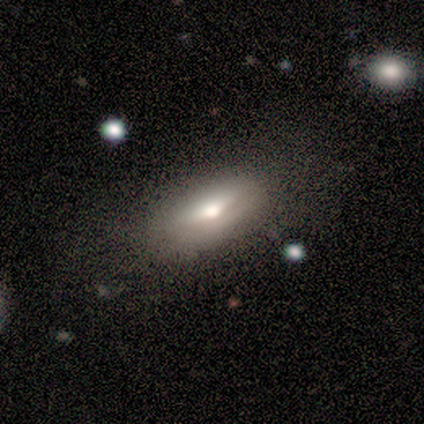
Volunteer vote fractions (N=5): Volunteers were most divided on "how rounded": in between: 75%, round: 25%, cigar-shaped: 0%. More confident: merging — none (100%); smooth or featured — smooth (80%).